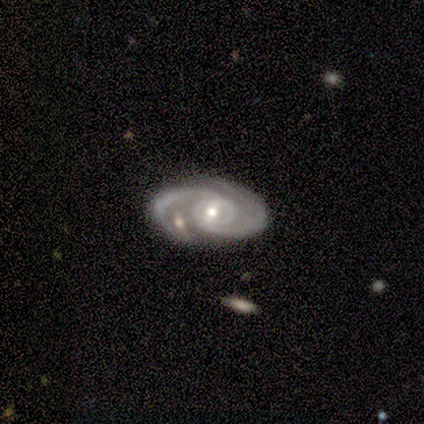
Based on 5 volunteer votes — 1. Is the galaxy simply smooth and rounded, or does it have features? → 100% featured or disk, 0% smooth, 0% star or artifact.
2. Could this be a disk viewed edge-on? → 100% no, 0% yes.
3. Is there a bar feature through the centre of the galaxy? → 40% weak (tied), 40% no (tied), 20% strong.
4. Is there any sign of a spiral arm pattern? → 100% yes, 0% no.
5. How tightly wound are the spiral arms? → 60% medium, 40% tight, 0% loose.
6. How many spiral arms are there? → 100% 2, 0% 1, 0% 3, 0% 4, 0% more than 4, 0% can't tell.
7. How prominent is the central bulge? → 80% small, 20% moderate, 0% dominant, 0% large, 0% none.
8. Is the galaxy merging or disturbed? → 60% none, 20% minor disturbance, 20% merger, 0% major disturbance.